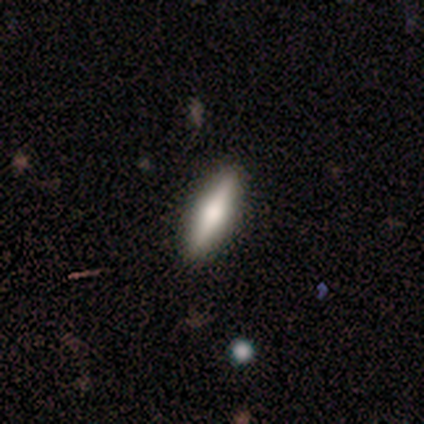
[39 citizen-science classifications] This appears to be a smooth galaxy with no disk features (54%) that is cigar-shaped (71%). Merging: none (82%).